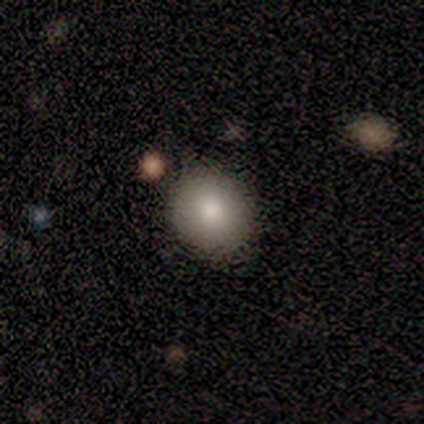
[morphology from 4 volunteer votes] type=smooth (50%); roundness=round (100%); merging=none (67%).